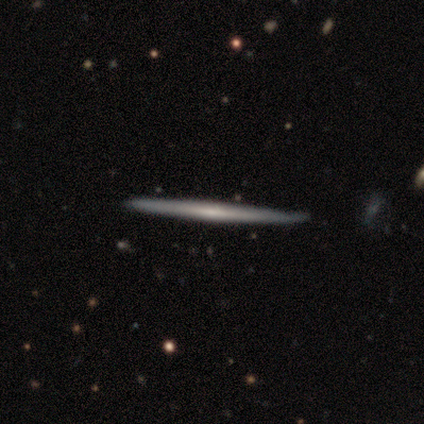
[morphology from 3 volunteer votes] This appears to be a featured or disk galaxy (100%) viewed edge-on (100%) with no central bulge (100%). Merging: none (100%).